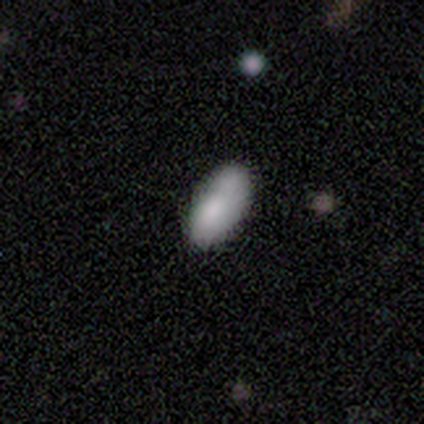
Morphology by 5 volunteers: A smooth galaxy with no disk features (100%) that is in between round and cigar-shaped (80%).

Vote fractions:
- Smooth or featured? smooth: 100% / featured or disk: 0% / star or artifact: 0%
- How rounded? in between: 80% / cigar-shaped: 20% / round: 0%
- Merging? none: 100% / minor disturbance: 0% / major disturbance: 0% / merger: 0%